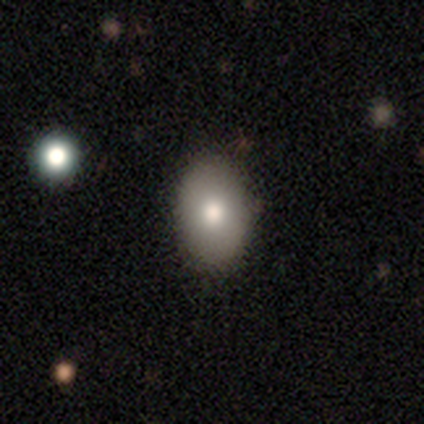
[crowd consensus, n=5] Overall: smooth (100%). How rounded: in between (60%; round 40%). Merging: none (80%).